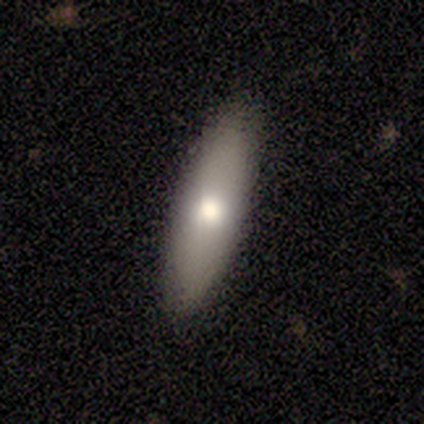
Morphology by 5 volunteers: A smooth galaxy with no disk features (80%) that is in between round and cigar-shaped (75%).

Vote fractions:
- Smooth or featured? smooth: 80% / featured or disk: 20% / star or artifact: 0%
- How rounded? in between: 75% / cigar-shaped: 25% / round: 0%
- Merging? none: 100% / minor disturbance: 0% / major disturbance: 0% / merger: 0%